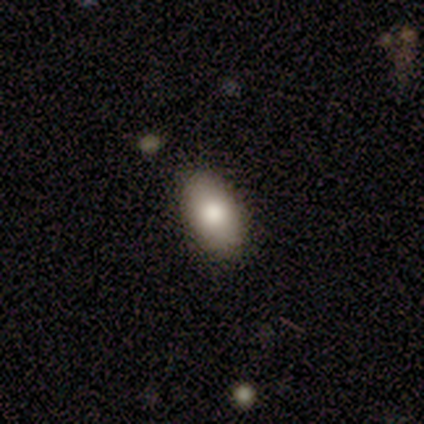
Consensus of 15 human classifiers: Smooth or featured? smooth (80%)
How rounded? in between (92%)
Merging? none (77%)